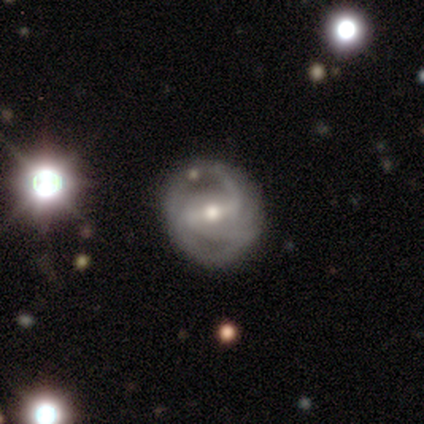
Overall: featured or disk (100%). Edge-on disk: no (100%). Bar: strong (75%). Spiral arms: yes (100%). Spiral arm count: 2 (75%). Spiral winding: medium (50%, tied with loose). Bulge size: moderate (75%). Merging: none (25%, tied with minor disturbance, major disturbance and merger).